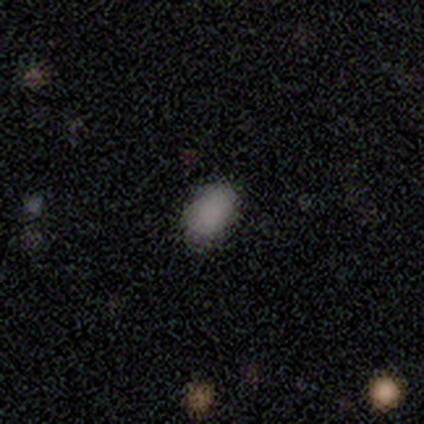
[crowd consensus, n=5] smooth 100%, featured or disk 0%, star or artifact 0%. Down the decision tree: how rounded — in between (60%); merging — none (80%).